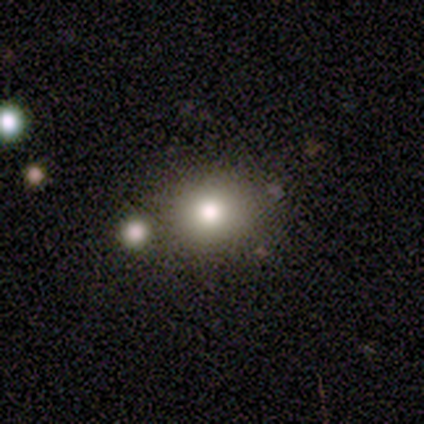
Q: Smooth or featured?
A: smooth (80%); runner-up: star or artifact (20%)
Q: How rounded?
A: round (75%); runner-up: in between (25%)
Q: Merging?
A: none (100%)